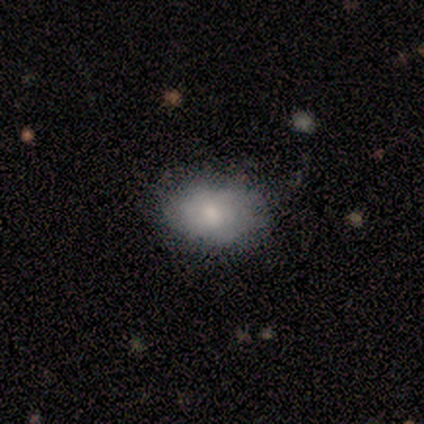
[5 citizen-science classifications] Morphology: type=smooth (80%); roundness=in between (100%); merging=none (80%).